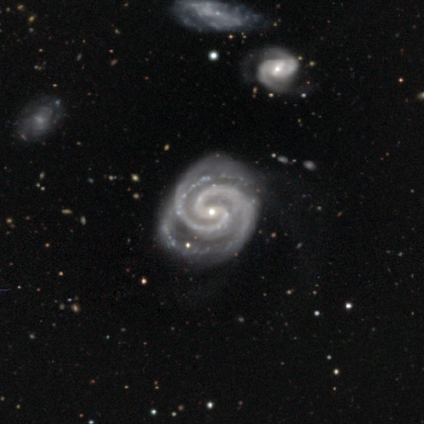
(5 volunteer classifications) Smooth or featured? featured or disk (100%)
Edge-on disk? no (80%)
Bar? weak (50%, tied with no)
Spiral arms? yes (100%)
Spiral winding? tight (100%)
Spiral arm count? 2 (100%)
Bulge size? small (75%)
Merging? none (80%)